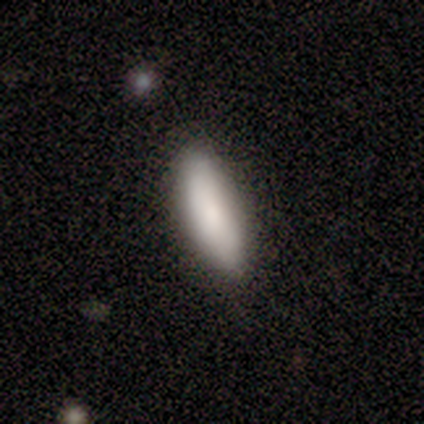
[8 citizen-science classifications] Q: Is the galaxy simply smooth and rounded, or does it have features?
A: smooth — 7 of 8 (88%).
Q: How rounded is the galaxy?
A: in between — 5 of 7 (71%).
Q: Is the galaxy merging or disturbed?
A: none — 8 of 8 (100%).